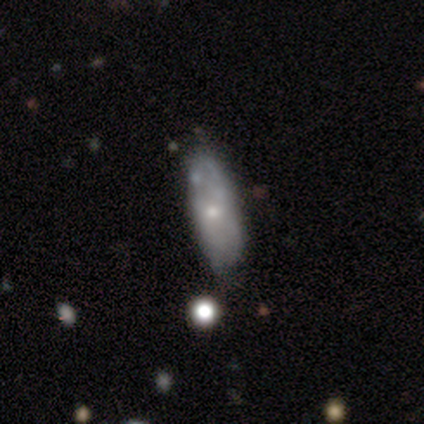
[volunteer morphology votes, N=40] Smooth or featured? 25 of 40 (62%) said smooth. How rounded? 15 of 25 (60%) said cigar-shaped. Merging? 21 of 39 (54%) said none.